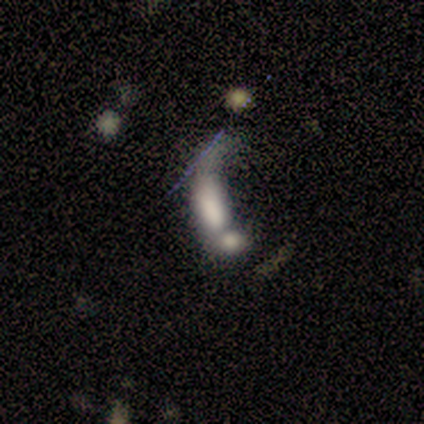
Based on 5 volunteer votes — Smooth or featured? smooth (40%, tied with featured or disk)
How rounded? in between (50%, tied with cigar-shaped)
Merging? merger (50%)